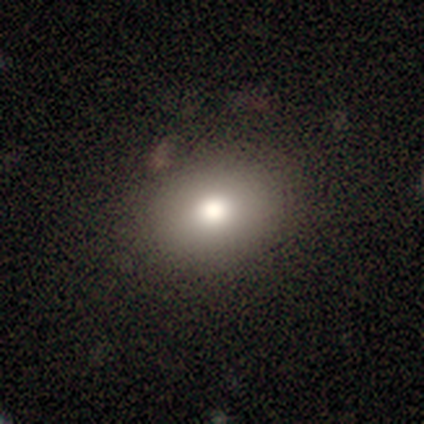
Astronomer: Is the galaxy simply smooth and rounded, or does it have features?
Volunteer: smooth — 79%.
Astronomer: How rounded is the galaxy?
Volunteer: round — 51% (runner-up: in between, 49%).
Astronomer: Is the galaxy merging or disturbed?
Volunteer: none — 79%.